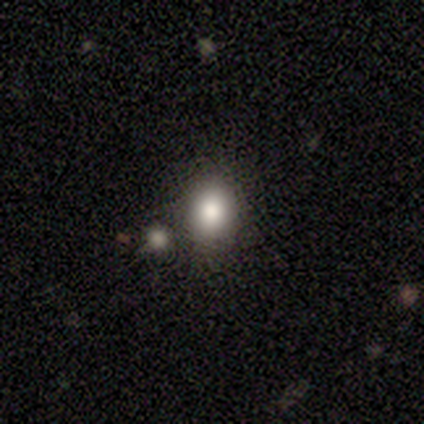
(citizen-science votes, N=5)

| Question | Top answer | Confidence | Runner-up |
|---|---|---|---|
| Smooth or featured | smooth | 40% | tied: featured or disk (40%) |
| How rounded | round | 100% | — |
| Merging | none | 100% | — |